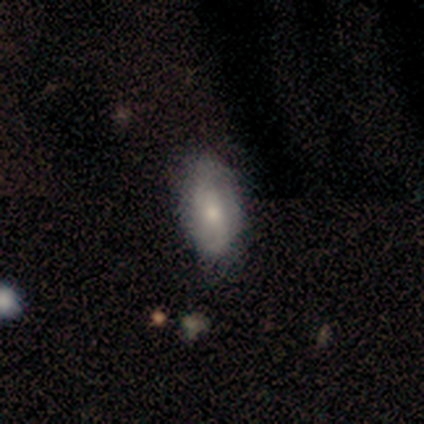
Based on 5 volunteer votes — Morphology: type=featured or disk (60%); edge-on=no (100%); bar=no (100%); spiral arms=yes (100%); winding=tight (67%); arm count=1 (33%, tied with 2 and can't tell); bulge=moderate (67%); merging=none (60%).